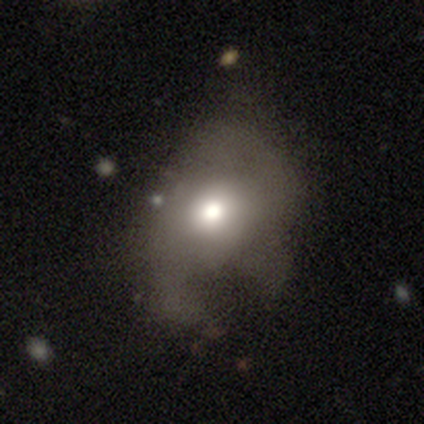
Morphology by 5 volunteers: This appears to be a smooth galaxy with no disk features (60%) that is in between round and cigar-shaped (67%). Merging: major disturbance (60%).